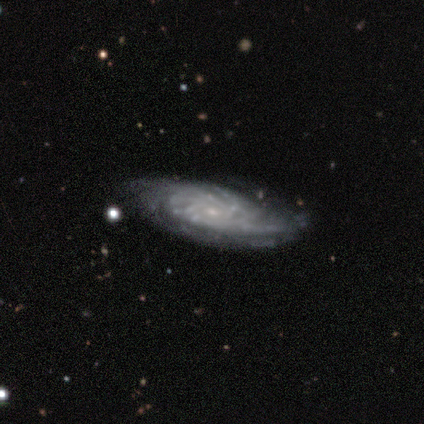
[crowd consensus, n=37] Smooth or featured? 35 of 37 (95%) said featured or disk. Edge-on disk? 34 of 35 (97%) said no. Bar? 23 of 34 (68%) said no. Spiral arms? 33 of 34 (97%) said yes. Spiral winding? 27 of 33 (82%) said tight. Spiral arm count? 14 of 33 (42%) said more than 4. Bulge size? 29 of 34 (85%) said small. Merging? 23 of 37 (62%) said none.